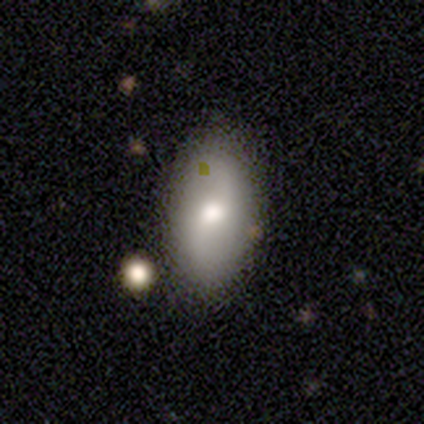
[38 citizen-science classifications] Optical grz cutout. It shows a smooth galaxy with no disk features (55%) that is in between round and cigar-shaped (90%). Merging: none (80%).